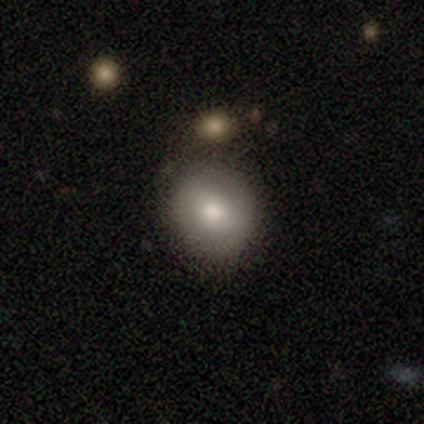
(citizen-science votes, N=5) Consensus on every question: smooth or featured — smooth (100%); how rounded — round (100%); merging — none (100%).